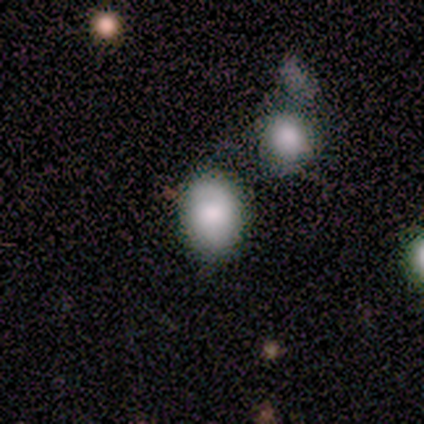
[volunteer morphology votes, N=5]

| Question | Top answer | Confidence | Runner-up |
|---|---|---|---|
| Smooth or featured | smooth | 80% | featured or disk (20%) |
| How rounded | in between | 75% | round (25%) |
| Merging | none | 60% | minor disturbance (20%) |